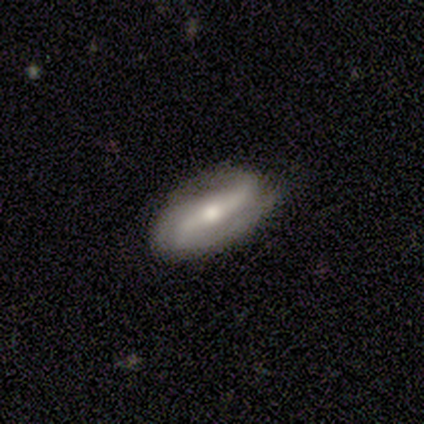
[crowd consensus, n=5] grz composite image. It shows a featured or disk galaxy (80%) with a strong bar (50%, tied with no), 2 (100%) tight (50%, tied with loose) spiral arms (100%) and a moderate central bulge (75%). Merging: none (80%).